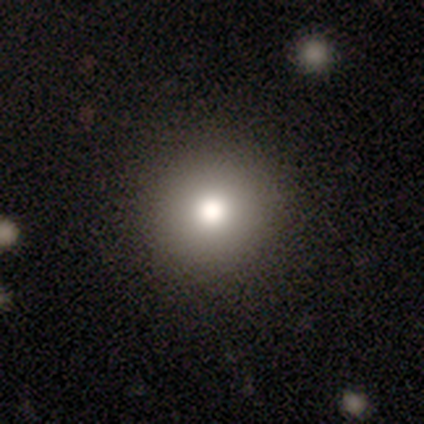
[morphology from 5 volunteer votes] smooth_or_featured: smooth (p=0.80) [alt: star or artifact p=0.20]
how_rounded: round (p=1.00)
merging: none (p=1.00)